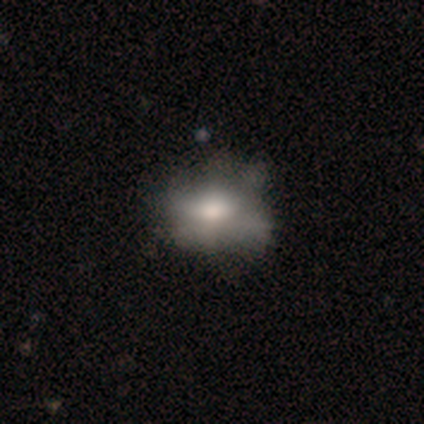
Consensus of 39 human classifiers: smooth-or-featured: smooth: 51% | featured or disk: 38% | star or artifact: 10%
  how-rounded: in between: 70% | round: 30% | cigar-shaped: 0%
  merging: none: 51% | major disturbance: 20% | minor disturbance: 11% | merger: 6%